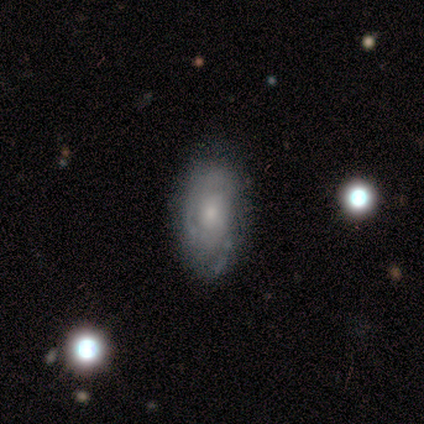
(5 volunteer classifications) A featured or disk galaxy (60%) with no bar (100%), tight (67%) spiral arms (100%) and a small central bulge (67%). Merging: none (60%).